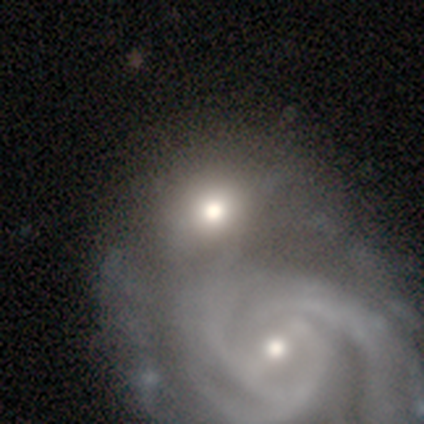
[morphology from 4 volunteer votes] smooth-or-featured: smooth: 75% | featured or disk: 25% | star or artifact: 0%
  how-rounded: round: 100% | in between: 0% | cigar-shaped: 0%
  merging: merger: 75% | none: 25% | minor disturbance: 0% | major disturbance: 0%